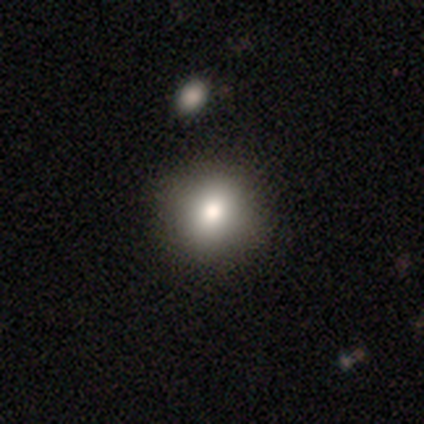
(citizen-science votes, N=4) Smooth or featured?
  - smooth: 75% *
  - star or artifact: 25%
  - featured or disk: 0%
How rounded?
  - round: 100% *
  - in between: 0%
  - cigar-shaped: 0%
Merging?
  - none: 100% *
  - minor disturbance: 0%
  - major disturbance: 0%
  - merger: 0%